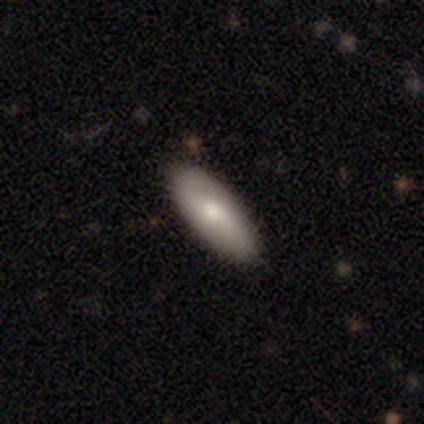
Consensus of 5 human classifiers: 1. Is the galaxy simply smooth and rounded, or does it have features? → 80% smooth, 20% featured or disk, 0% star or artifact.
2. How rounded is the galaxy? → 50% cigar-shaped, 25% round, 25% in between.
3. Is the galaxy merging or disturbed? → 100% none, 0% minor disturbance, 0% major disturbance, 0% merger.